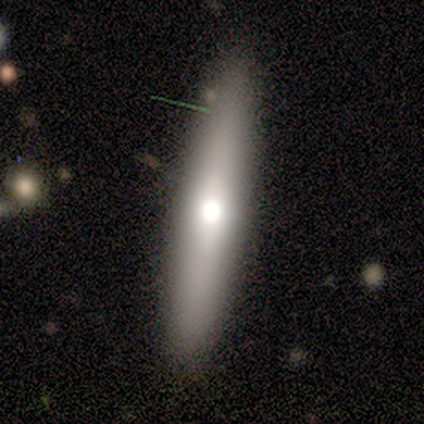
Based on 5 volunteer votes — Morphology: type=smooth (80%); roundness=in between (50%, tied with cigar-shaped); merging=none (80%).